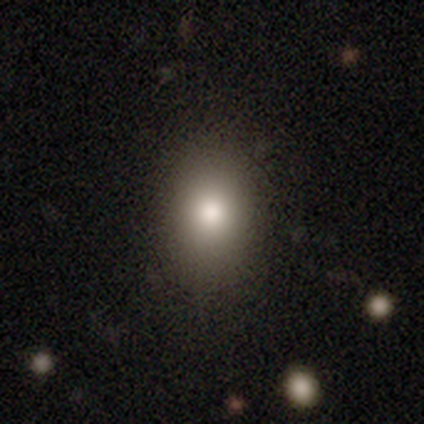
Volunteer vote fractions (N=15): Smooth or featured?
  - smooth: 87% *
  - featured or disk: 7%
  - star or artifact: 7%
How rounded?
  - in between: 77% *
  - round: 23%
  - cigar-shaped: 0%
Merging?
  - none: 93% *
  - minor disturbance: 7%
  - major disturbance: 0%
  - merger: 0%